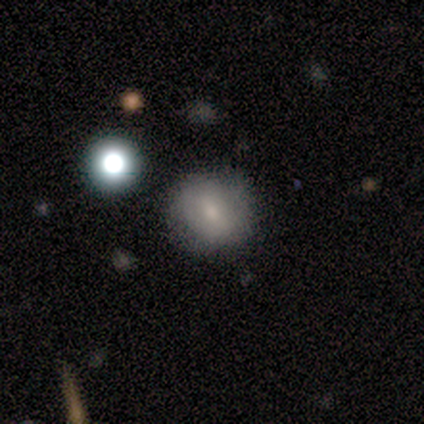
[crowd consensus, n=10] Smooth or featured? smooth (70%)
How rounded? round (71%)
Merging? none (67%)